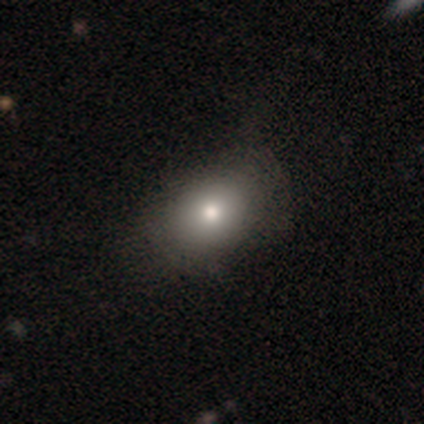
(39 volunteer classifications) Morphology: type=smooth (72%); roundness=in between (68%); merging=none (91%).